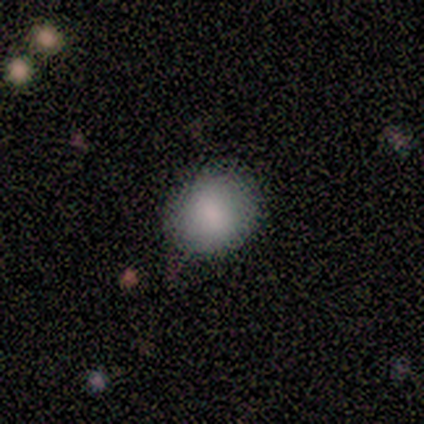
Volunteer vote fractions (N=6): smooth-or-featured: smooth: 83% | star or artifact: 17% | featured or disk: 0%
  how-rounded: round: 60% | in between: 40% | cigar-shaped: 0%
  merging: none: 80% | minor disturbance: 20% | major disturbance: 0% | merger: 0%